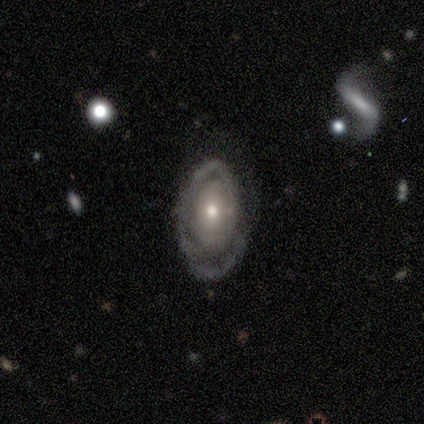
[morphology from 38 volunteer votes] Smooth or featured? featured or disk (79%)
Edge-on disk? no (90%)
Bar? no (78%)
Spiral arms? yes (78%)
Spiral winding? tight (90%)
Spiral arm count? 1 (67%)
Bulge size? small (63%)
Merging? none (69%)